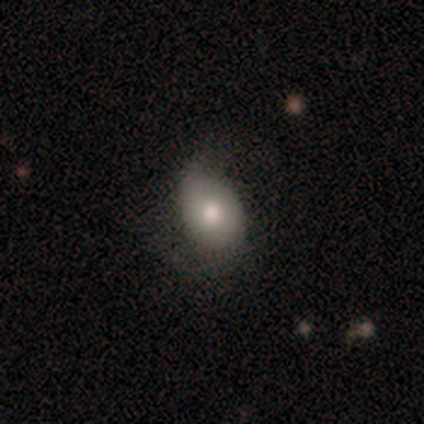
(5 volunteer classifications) Smooth or featured? smooth (80%)
How rounded? in between (100%)
Merging? minor disturbance (60%)